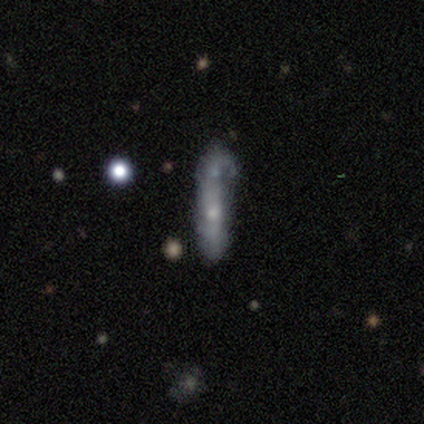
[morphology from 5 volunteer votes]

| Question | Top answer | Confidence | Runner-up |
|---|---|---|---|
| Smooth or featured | smooth | 60% | featured or disk (20%) |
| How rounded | cigar-shaped | 67% | in between (33%) |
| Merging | none | 50% | tied: minor disturbance (50%) |